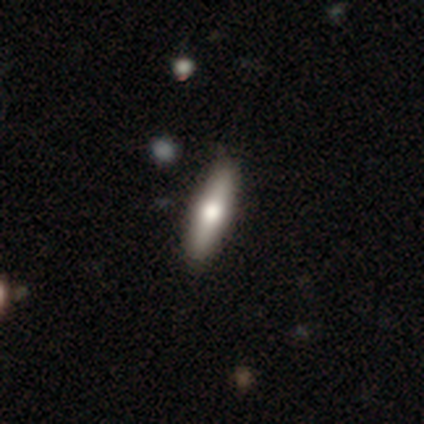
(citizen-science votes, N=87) Overall: smooth (48%; featured or disk 47%). How rounded: cigar-shaped (79%). Merging: none (87%).